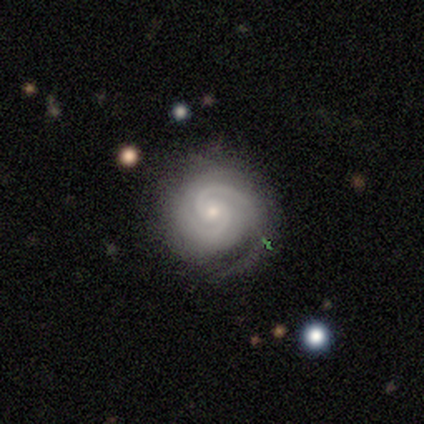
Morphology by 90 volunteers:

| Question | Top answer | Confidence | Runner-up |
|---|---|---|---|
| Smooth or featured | featured or disk | 90% | smooth (6%) |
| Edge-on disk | no | 100% | — |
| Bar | no | 65% | weak (22%) |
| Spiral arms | yes | 99% | no (1%) |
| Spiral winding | tight | 71% | medium (26%) |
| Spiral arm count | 2 | 75% | can't tell (11%) |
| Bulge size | small | 72% | moderate (25%) |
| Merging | none | 69% | minor disturbance (23%) |